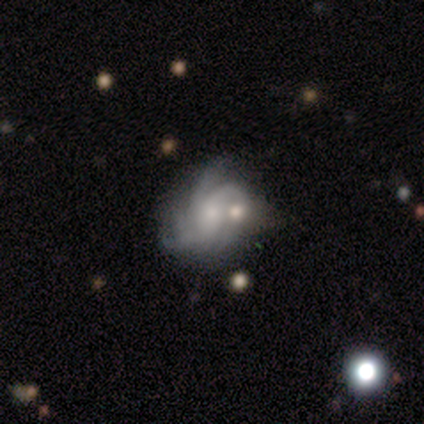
Smooth or featured? featured or disk (100%)
Edge-on disk? no (100%)
Bar? no (60%)
Spiral arms? yes (100%)
Spiral winding? tight (40%, tied with medium)
Spiral arm count? 4 (60%)
Bulge size? moderate (60%)
Merging? minor disturbance (60%)